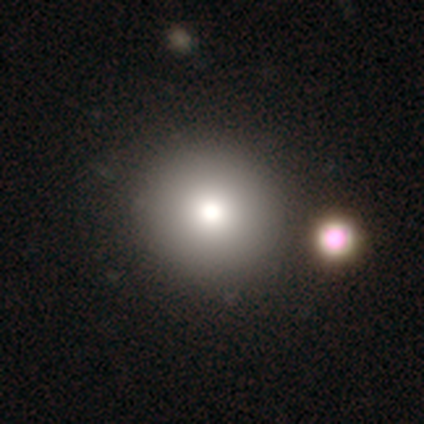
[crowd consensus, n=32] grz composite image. It shows a smooth galaxy with no disk features (69%) that is round (95%). Merging: none (81%).